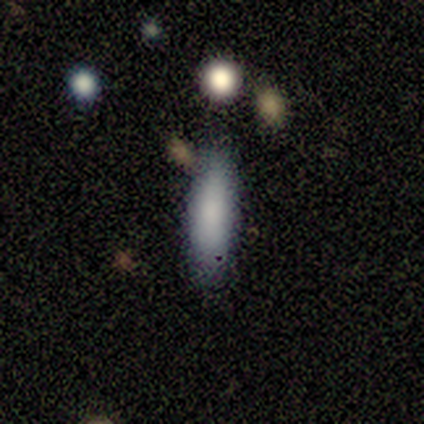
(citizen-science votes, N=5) Volunteers were most divided on "how rounded": in between: 75%, cigar-shaped: 25%, round: 0%. More confident: merging — none (100%); smooth or featured — smooth (80%).